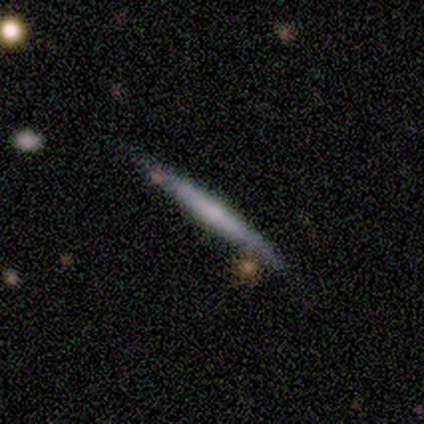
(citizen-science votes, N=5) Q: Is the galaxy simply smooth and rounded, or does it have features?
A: featured or disk — 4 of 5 (80%).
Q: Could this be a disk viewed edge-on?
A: yes — 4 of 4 (100%).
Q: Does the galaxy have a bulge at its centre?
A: none — 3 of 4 (75%).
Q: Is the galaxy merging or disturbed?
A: none — 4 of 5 (80%).